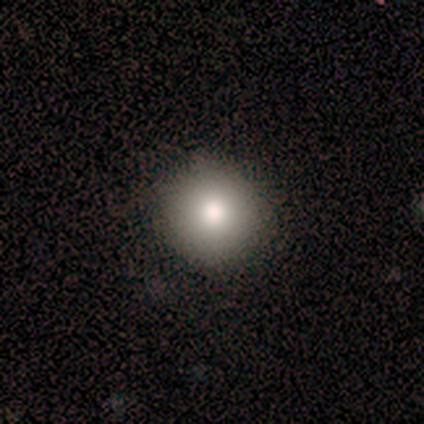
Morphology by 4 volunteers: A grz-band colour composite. It shows a smooth galaxy with no disk features (50%) that is round (100%). Merging: none (67%).